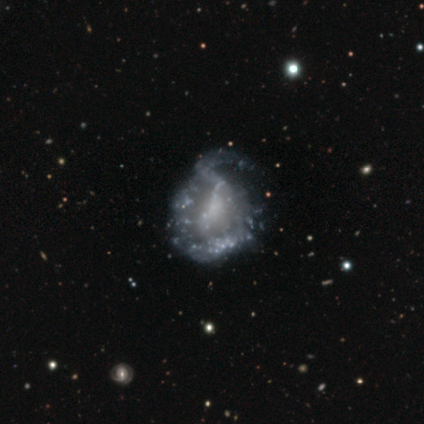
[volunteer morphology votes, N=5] smooth-or-featured: featured or disk: 80% | star or artifact: 20% | smooth: 0%
  disk-edge-on: no: 100% | yes: 0%
    bar: no: 100% | strong: 0% | weak: 0%
    has-spiral-arms: no: 75% | yes: 25%
    bulge-size: none: 100% | dominant: 0% | large: 0% | moderate: 0% | small: 0%
  merging: minor disturbance: 50% | none: 25% | major disturbance: 25% | merger: 0%